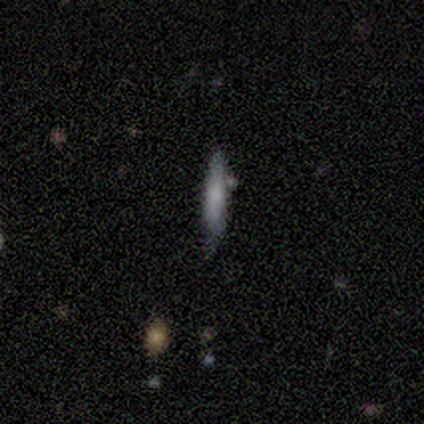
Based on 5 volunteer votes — This is likely a smooth galaxy (60%). How rounded: clearly cigar-shaped (100%). Merging: clearly none (100%).